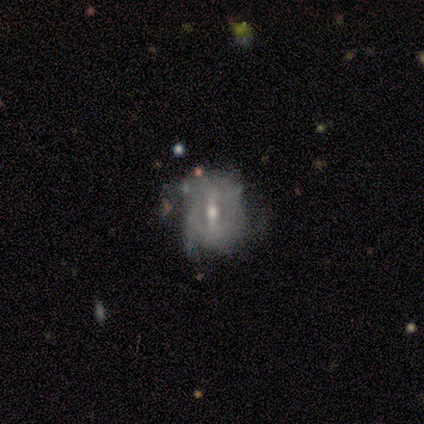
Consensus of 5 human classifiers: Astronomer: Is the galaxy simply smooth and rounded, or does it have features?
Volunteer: featured or disk — 80%.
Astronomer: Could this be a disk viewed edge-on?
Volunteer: no — 75%.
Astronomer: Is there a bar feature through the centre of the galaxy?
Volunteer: strong — 67%.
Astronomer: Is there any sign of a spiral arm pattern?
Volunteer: yes — 67%.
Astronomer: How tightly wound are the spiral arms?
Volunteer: loose — 100%.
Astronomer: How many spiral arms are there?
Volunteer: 3 — 50%, tied with can't tell at 50%.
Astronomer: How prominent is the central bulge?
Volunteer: moderate — 67%.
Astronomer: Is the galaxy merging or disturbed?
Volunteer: none — 40%, tied with minor disturbance at 40%.